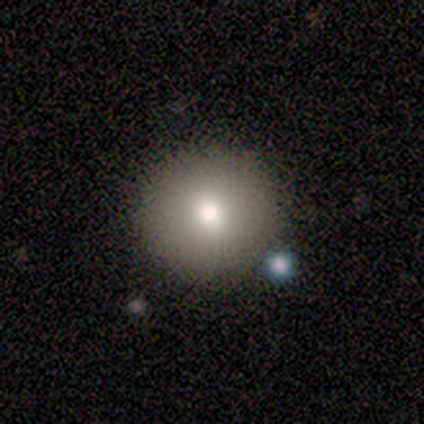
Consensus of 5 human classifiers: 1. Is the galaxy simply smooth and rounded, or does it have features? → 80% smooth, 20% star or artifact, 0% featured or disk.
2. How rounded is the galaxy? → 100% round, 0% in between, 0% cigar-shaped.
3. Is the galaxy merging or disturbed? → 100% none, 0% minor disturbance, 0% major disturbance, 0% merger.